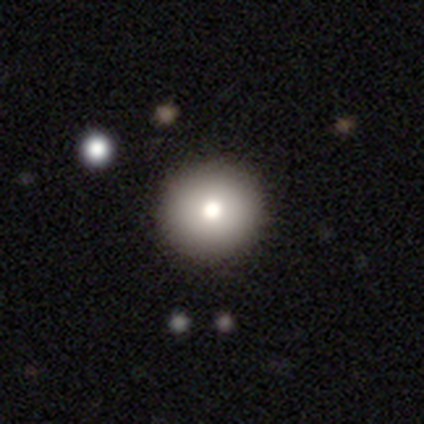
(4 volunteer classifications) Volunteers were most divided on "smooth or featured": smooth: 75%, featured or disk: 25%, star or artifact: 0%. More confident: how rounded — round (100%); merging — none (100%).